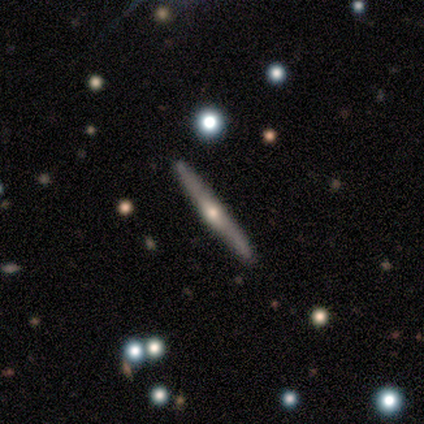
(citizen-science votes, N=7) Smooth or featured: featured or disk — 71% (smooth — 29%)
Edge-on disk: yes — 100%
Edge-on bulge: rounded — 60% (boxy — 20%)
Merging: none — 100%